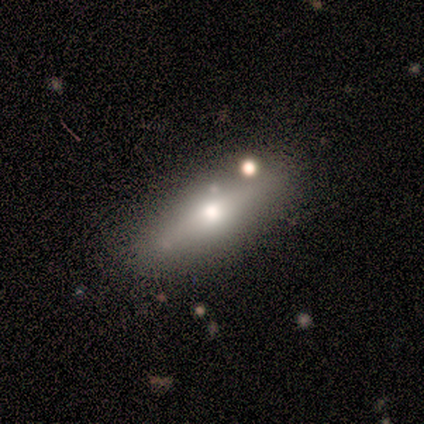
Smooth or featured? smooth (60%)
How rounded? in between (67%)
Merging? none (100%)